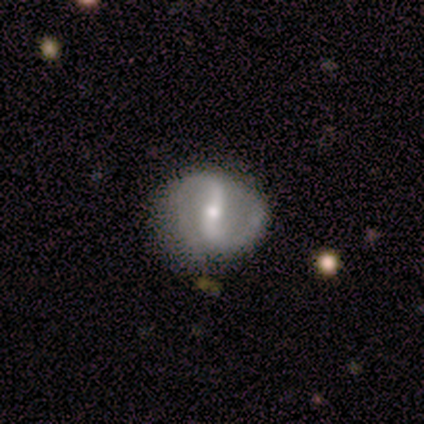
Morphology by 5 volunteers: featured or disk 80%, smooth 20%, star or artifact 0%. Down the decision tree: edge-on disk — no (100%); bar — strong (75%); spiral arms — yes (75%); spiral arm count — 2 (100%); spiral winding — tight (33%, tied with medium and loose); bulge size — moderate (50%); merging — none (60%).